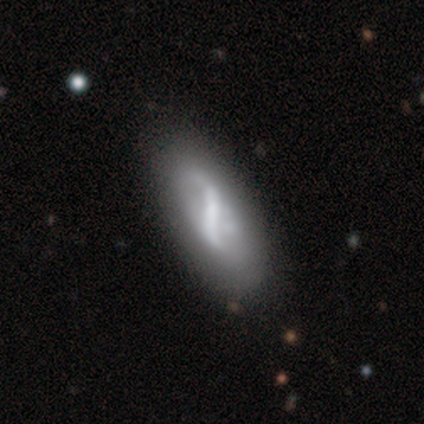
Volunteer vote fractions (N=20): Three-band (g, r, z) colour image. It shows a featured or disk galaxy (65%) with a strong bar (69%), 2 (89%) loose (89%) spiral arms (69%) and a small central bulge (69%). Merging: none (58%).